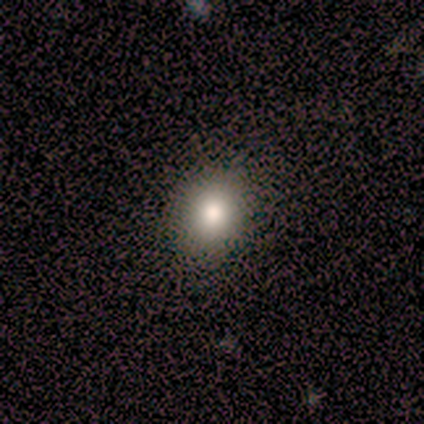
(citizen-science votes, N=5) smooth-or-featured: smooth: 80% | star or artifact: 20% | featured or disk: 0%
  how-rounded: round: 50% (tied) | in between: 50% (tied) | cigar-shaped: 0%
  merging: none: 75% | minor disturbance: 25% | major disturbance: 0% | merger: 0%